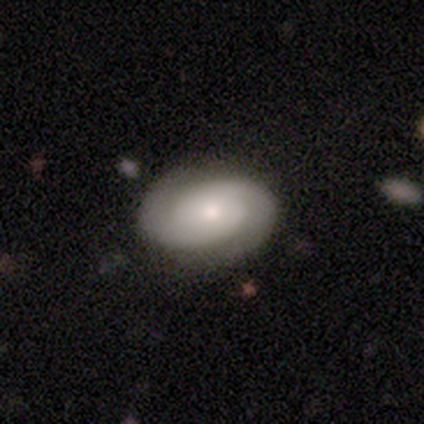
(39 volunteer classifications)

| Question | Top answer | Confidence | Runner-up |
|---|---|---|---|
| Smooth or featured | featured or disk | 77% | smooth (23%) |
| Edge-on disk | no | 97% | yes (3%) |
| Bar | no | 76% | weak (17%) |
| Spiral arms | yes | 100% | — |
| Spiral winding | tight | 55% | medium (34%) |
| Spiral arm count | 2 | 97% | can't tell (3%) |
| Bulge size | moderate | 59% | small (31%) |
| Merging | none | 82% | minor disturbance (10%) |